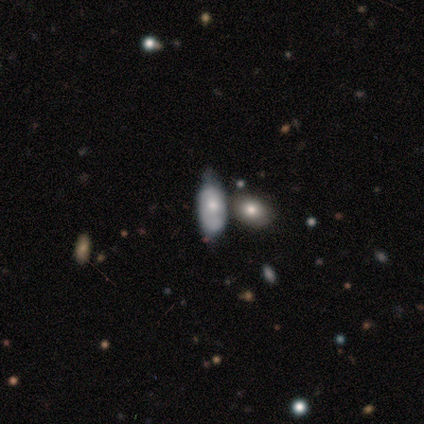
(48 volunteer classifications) This is possibly a smooth galaxy (54%). How rounded: clearly in between (85%). Merging: marginally merger (34%).